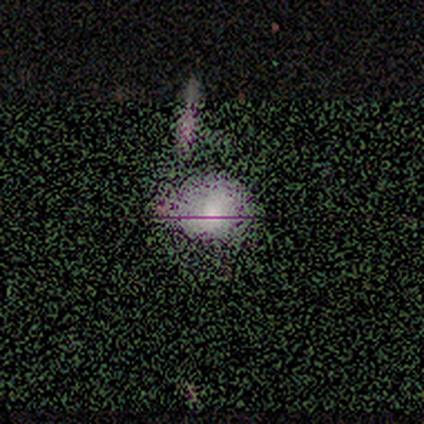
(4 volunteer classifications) Q: Smooth or featured?
A: smooth (75%); runner-up: star or artifact (25%)
Q: How rounded?
A: in between (67%); runner-up: round (33%)
Q: Merging?
A: none (67%); runner-up: major disturbance (33%)